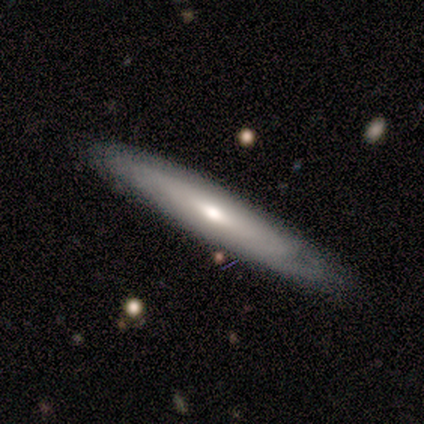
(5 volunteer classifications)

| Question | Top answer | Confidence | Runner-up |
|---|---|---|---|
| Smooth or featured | featured or disk | 60% | smooth (40%) |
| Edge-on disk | yes | 100% | — |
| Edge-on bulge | rounded | 67% | none (33%) |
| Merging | none | 100% | — |